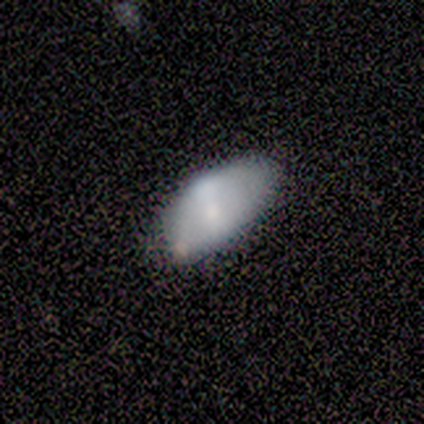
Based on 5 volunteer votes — This appears to be a smooth galaxy with no disk features (60%) that is in between round and cigar-shaped (100%). Merging: none (40%, tied with minor disturbance).